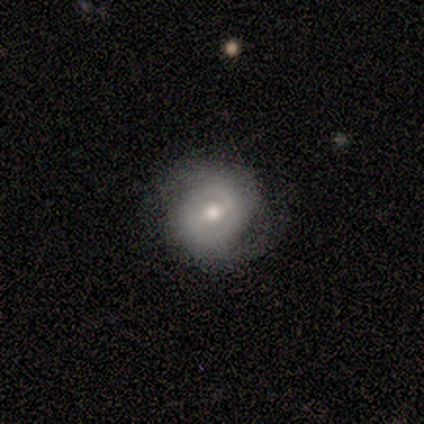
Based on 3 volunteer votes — Smooth or featured? 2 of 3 (67%) said featured or disk. Edge-on disk? 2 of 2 (100%) said no. Bar? 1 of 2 (50%, tied with weak) said strong. Spiral arms? 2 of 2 (100%) said yes. Spiral winding? 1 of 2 (50%, tied with medium) said tight. Spiral arm count? 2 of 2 (100%) said 2. Bulge size? 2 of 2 (100%) said moderate. Merging? 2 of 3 (67%) said none.